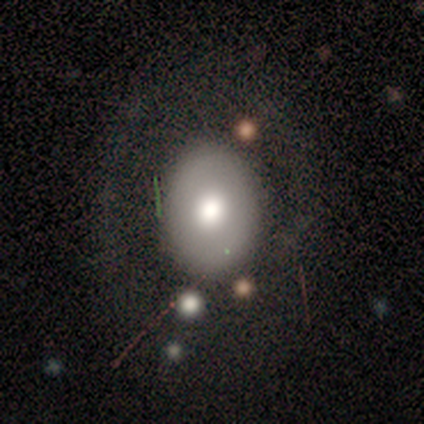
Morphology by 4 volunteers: Smooth or featured: smooth — 50% (tied with featured or disk — 50%)
How rounded: round — 50% (tied with in between — 50%)
Merging: none — 100%